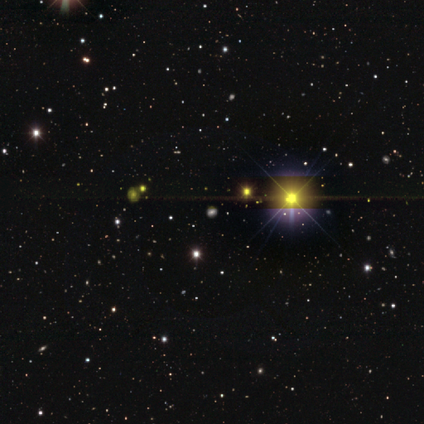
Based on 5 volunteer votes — This appears to be a star or artifact, not a galaxy (60%).